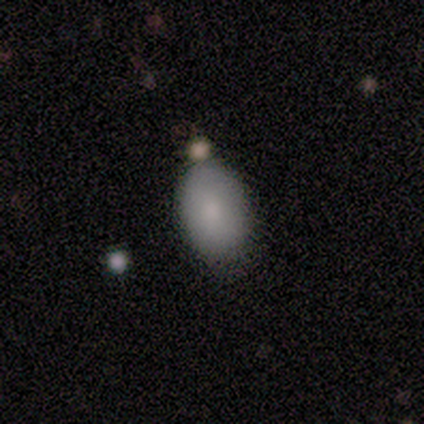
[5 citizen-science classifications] A smooth galaxy with no disk features (60%) that is in between round and cigar-shaped (67%). Merging: none (75%).